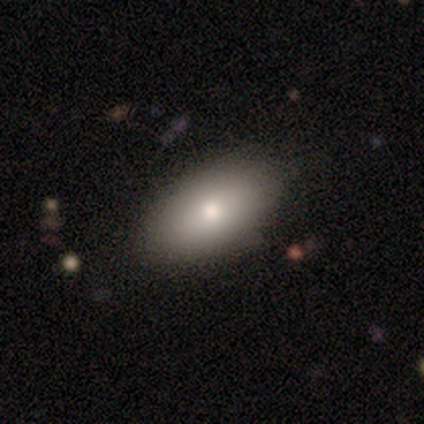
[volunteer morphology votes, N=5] Q: Smooth or featured?
A: smooth (60%); runner-up: featured or disk (20%)
Q: How rounded?
A: in between (100%)
Q: Merging?
A: none (75%); runner-up: merger (25%)